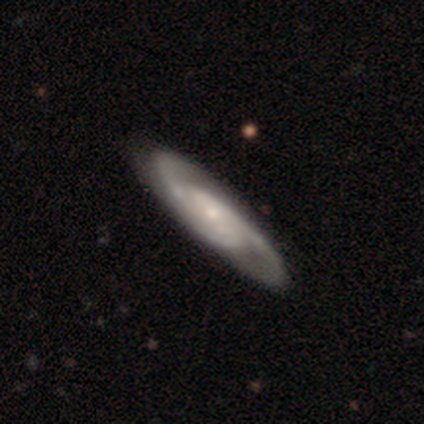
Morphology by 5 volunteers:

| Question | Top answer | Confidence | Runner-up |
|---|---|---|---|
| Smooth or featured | featured or disk | 80% | smooth (20%) |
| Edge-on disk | no | 100% | — |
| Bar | weak | 50% | tied: no (50%) |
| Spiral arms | yes | 100% | — |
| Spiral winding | medium | 75% | tight (25%) |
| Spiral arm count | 2 | 75% | 3 (25%) |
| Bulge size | small | 75% | none (25%) |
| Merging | minor disturbance | 60% | none (40%) |